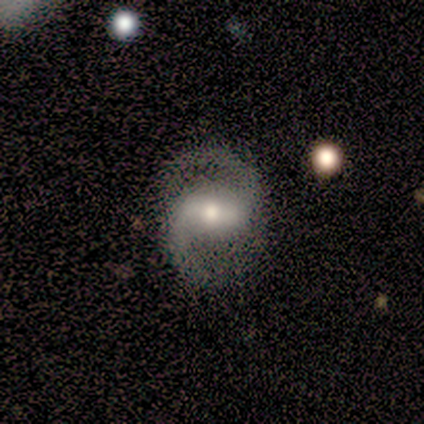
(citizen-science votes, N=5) Smooth or featured?
  - featured or disk: 80% *
  - star or artifact: 20%
  - smooth: 0%
Edge-on disk?
  - no: 100% *
  - yes: 0%
Bar?
  - weak: 75% *
  - strong: 25%
  - no: 0%
Spiral arms?
  - yes: 100% *
  - no: 0%
Spiral winding?
  - medium: 50% * (tied)
  - loose: 50% * (tied)
  - tight: 0%
Spiral arm count?
  - 2: 100% *
  - 1: 0%
  - 3: 0%
  - 4: 0%
  - more than 4: 0%
  - can't tell: 0%
Bulge size?
  - moderate: 50% * (tied)
  - small: 50% * (tied)
  - dominant: 0%
  - large: 0%
  - none: 0%
Merging?
  - none: 100% *
  - minor disturbance: 0%
  - major disturbance: 0%
  - merger: 0%